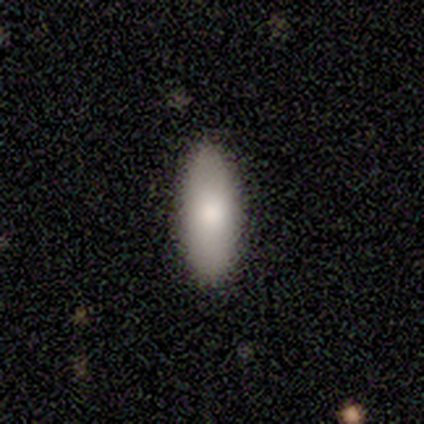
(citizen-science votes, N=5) This appears to be a smooth galaxy with no disk features (80%) that is in between round and cigar-shaped (75%). Merging: none (100%).